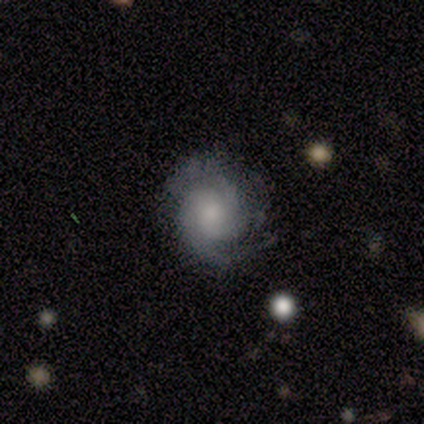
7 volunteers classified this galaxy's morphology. Smooth or featured? featured or disk (71%)
Edge-on disk? no (100%)
Bar? no (100%)
Spiral arms? yes (100%)
Spiral winding? medium (60%)
Spiral arm count? 2 (60%)
Bulge size? large (40%, tied with moderate)
Merging? none (83%)